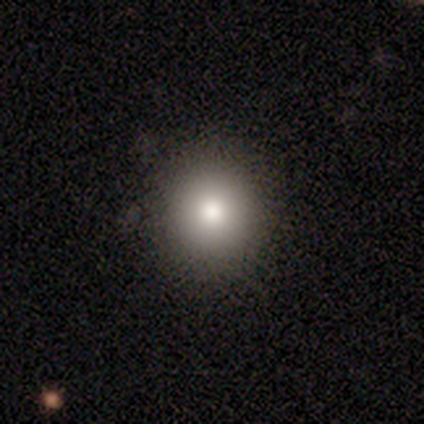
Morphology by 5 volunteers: Volunteers were most divided on "smooth or featured": smooth: 80%, star or artifact: 20%, featured or disk: 0%. More confident: how rounded — round (100%); merging — none (100%).